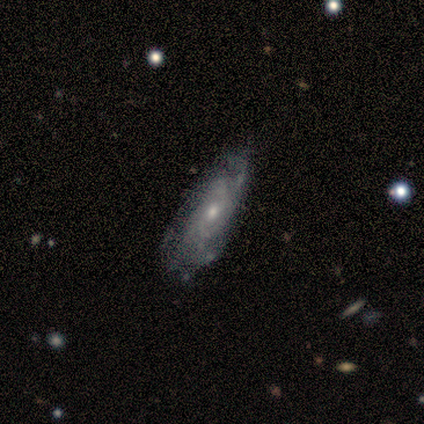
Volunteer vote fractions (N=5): Smooth or featured? featured or disk (60%)
Edge-on disk? no (100%)
Bar? no (67%)
Spiral arms? yes (67%)
Spiral winding? medium (100%)
Spiral arm count? 4 (50%, tied with can't tell)
Bulge size? small (67%)
Merging? none (100%)